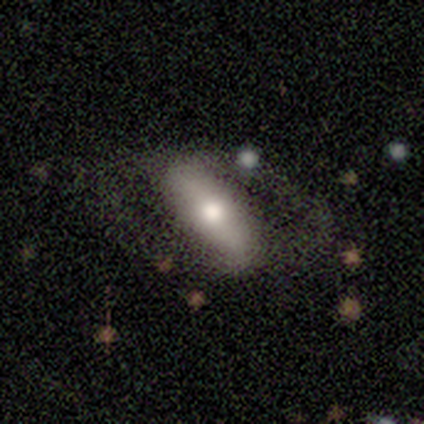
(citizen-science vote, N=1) Overall: featured or disk (100%). Edge-on disk: no (100%). Bar: no (100%). Spiral arms: no (100%). Bulge size: moderate (100%). Merging: none (100%).